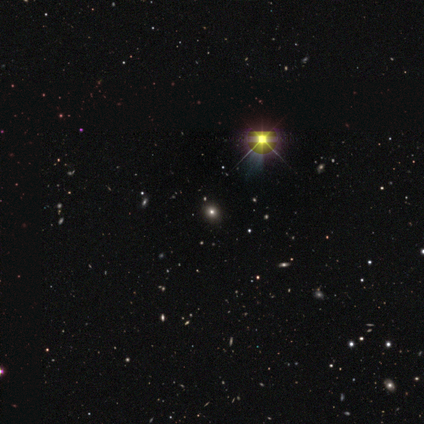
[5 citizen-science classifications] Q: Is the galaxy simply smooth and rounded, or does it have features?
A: star or artifact — 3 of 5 (60%).